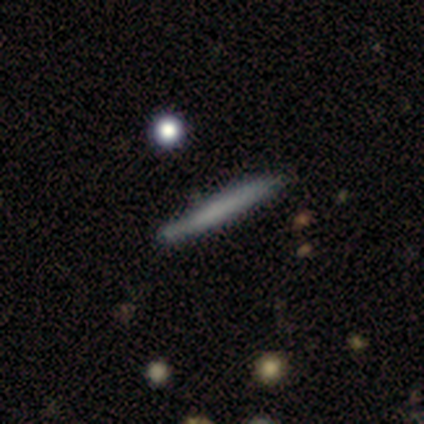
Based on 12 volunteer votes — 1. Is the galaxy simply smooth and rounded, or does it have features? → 83% smooth, 8% featured or disk, 8% star or artifact.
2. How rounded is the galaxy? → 100% cigar-shaped, 0% round, 0% in between.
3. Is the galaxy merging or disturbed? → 82% none, 9% minor disturbance, 9% merger, 0% major disturbance.